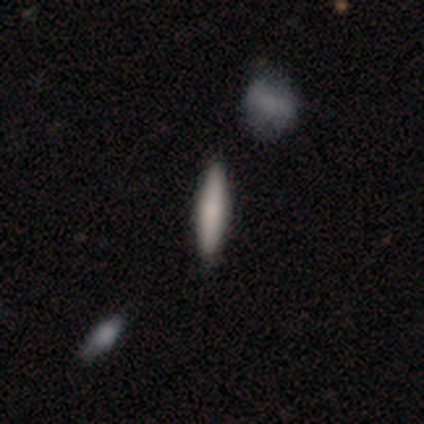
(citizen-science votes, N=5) This appears to be a smooth galaxy with no disk features (80%) that is cigar-shaped (75%). Merging: none (100%).